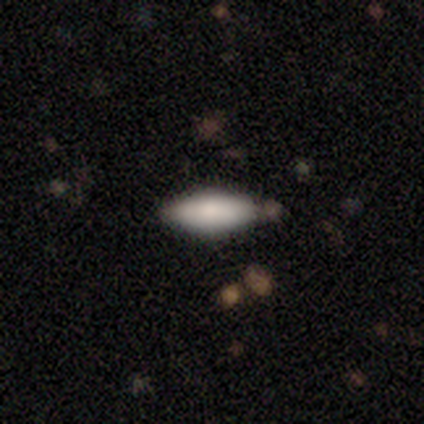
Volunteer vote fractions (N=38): A smooth galaxy with no disk features (76%) that is in between round and cigar-shaped (62%). Merging: none (79%).